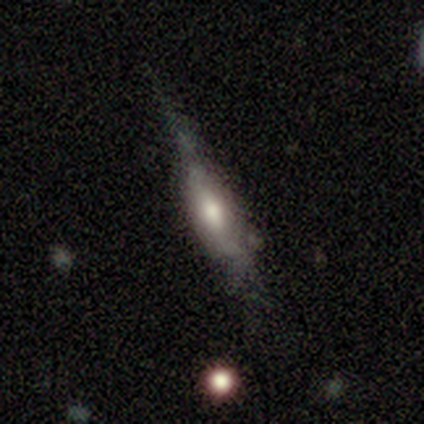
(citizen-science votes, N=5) This is likely a smooth galaxy (60%). How rounded: likely in between (67%). Merging: marginally none (40%, tied with minor disturbance).